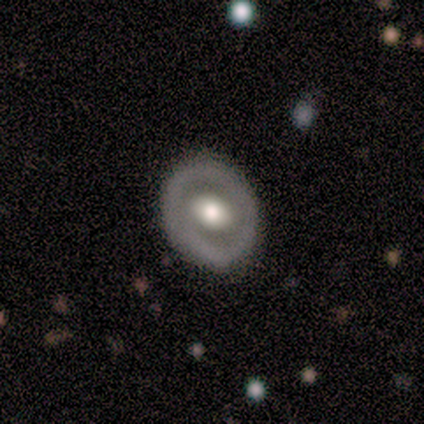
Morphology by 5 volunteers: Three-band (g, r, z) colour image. It shows a featured or disk galaxy (60%) with a weak bar (67%), no spiral arms (100%) and a moderate central bulge (67%). Merging: none (80%).